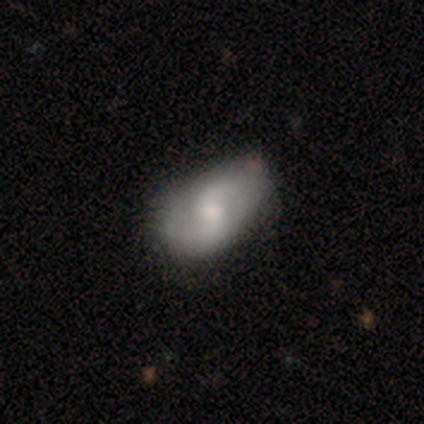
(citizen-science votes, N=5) This is clearly a featured or disk galaxy (100%). It is clearly not viewed edge-on (100%). Bar: likely weak (60%). Spiral arm pattern: clearly yes (100%). Spiral arm count: clearly 2 (80%). Spiral winding: marginally tight (40%, tied with medium). Central bulge: likely moderate (60%). Merging: marginally none (40%, tied with minor disturbance).